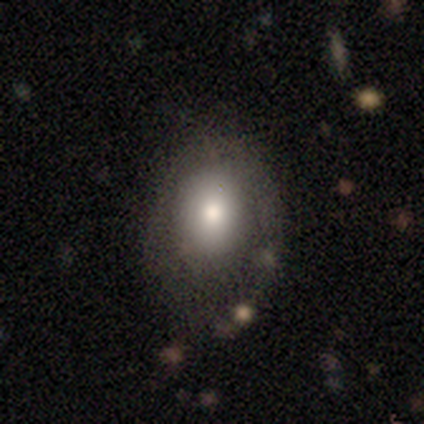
This appears to be a smooth galaxy with no disk features (62%) that is in between round and cigar-shaped (71%). Merging: none (47%).